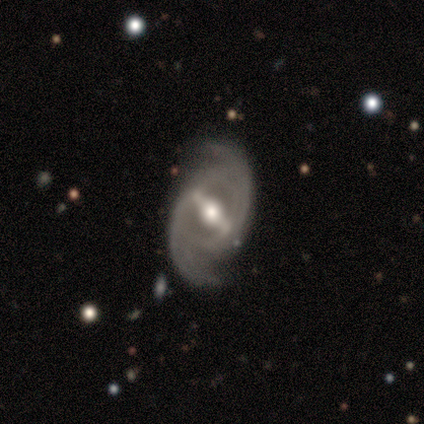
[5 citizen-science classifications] Q: Smooth or featured?
A: featured or disk (100%)
Q: Edge-on disk?
A: no (100%)
Q: Bar?
A: strong (80%); runner-up: weak (20%)
Q: Spiral arms?
A: yes (100%)
Q: Spiral winding?
A: medium (40%); tied with: loose (40%)
Q: Spiral arm count?
A: 2 (80%); runner-up: can't tell (20%)
Q: Bulge size?
A: moderate (80%); runner-up: large (20%)
Q: Merging?
A: none (60%); runner-up: merger (40%)